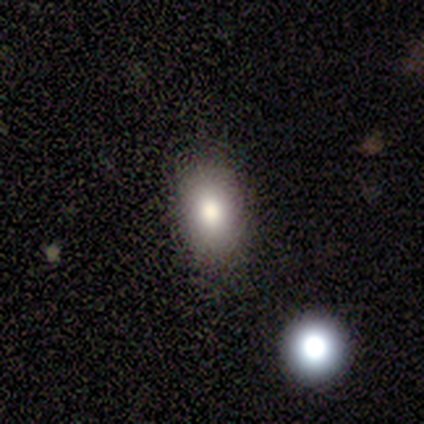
This appears to be a smooth galaxy with no disk features (60%) that is round (67%). Merging: none (75%).